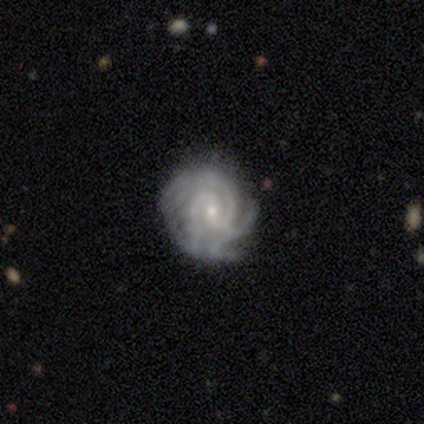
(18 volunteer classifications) smooth_or_featured: featured or disk (p=1.00)
disk_edge_on: no (p=1.00)
bar: no (p=0.56) [alt: weak p=0.44]
has_spiral_arms: yes (p=0.94) [alt: no p=0.06]
spiral_winding: tight (p=0.71) [alt: medium p=0.29]
spiral_arm_count: can't tell (p=0.35) [alt: 3 p=0.29]
bulge_size: small (p=0.78) [alt: moderate p=0.17]
merging: none (p=0.78) [alt: minor disturbance p=0.22]